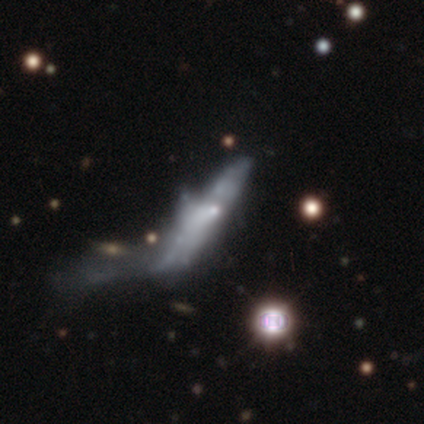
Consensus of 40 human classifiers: This appears to be a featured or disk galaxy (50%) with no bar (92%), no spiral arms (92%) and a small central bulge (75%). Merging: major disturbance (67%).